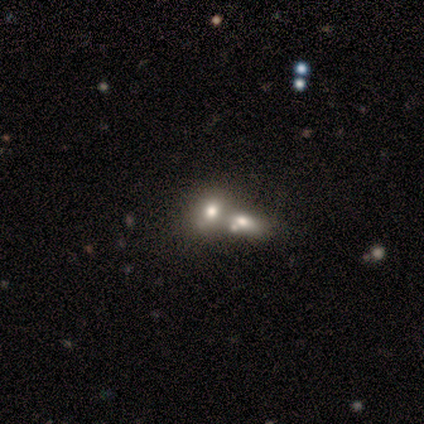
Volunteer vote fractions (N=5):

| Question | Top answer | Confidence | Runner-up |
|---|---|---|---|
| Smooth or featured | smooth | 80% | featured or disk (20%) |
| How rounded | in between | 75% | round (25%) |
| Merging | merger | 80% | none (20%) |